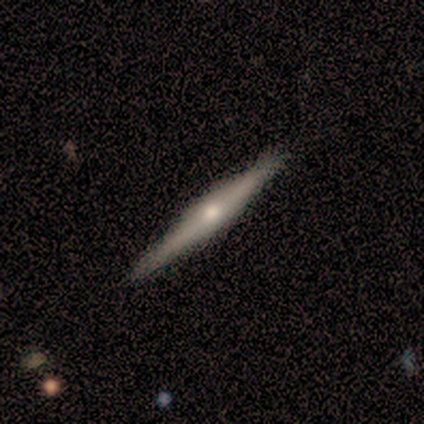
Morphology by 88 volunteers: Volunteers were most divided on "smooth or featured": featured or disk: 78%, smooth: 16%, star or artifact: 6%. More confident: edge-on disk — yes (100%); merging — none (88%); edge-on bulge — rounded (83%).